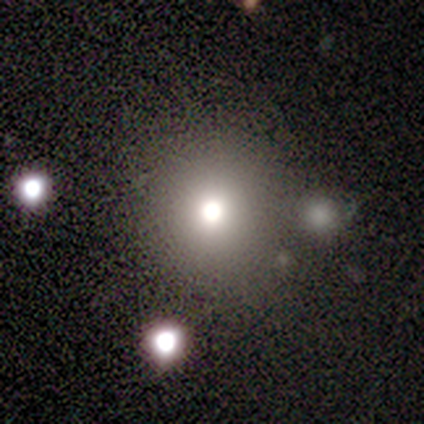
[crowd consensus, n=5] Morphology: type=star or artifact (60%).